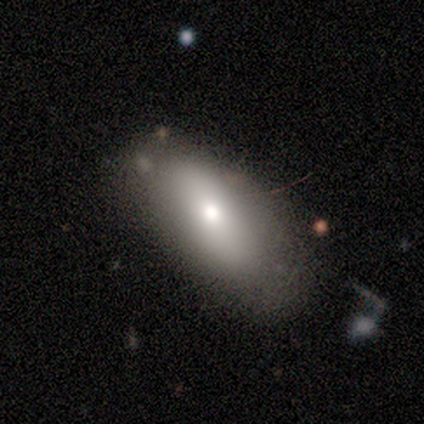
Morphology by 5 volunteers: type=smooth (60%); roundness=in between (67%); merging=none (50%, tied with minor disturbance).